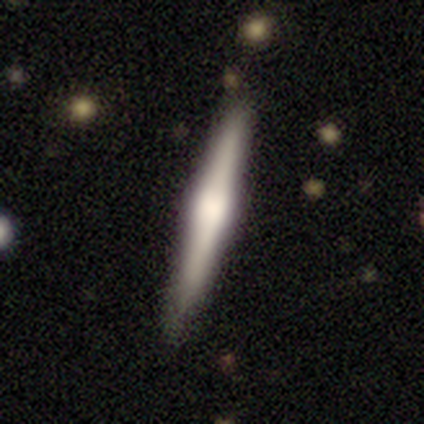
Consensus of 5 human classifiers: Overall: featured or disk (60%; smooth 40%). Edge-on disk: yes (100%). Edge-on bulge: rounded (67%; none 33%). Merging: none (100%).